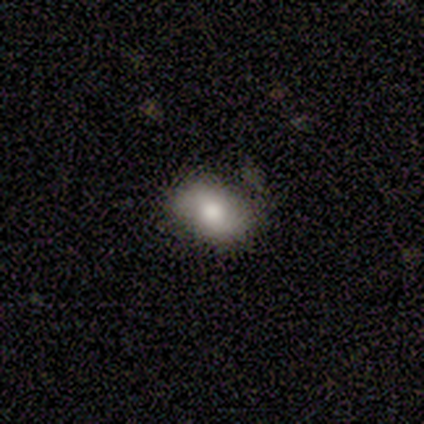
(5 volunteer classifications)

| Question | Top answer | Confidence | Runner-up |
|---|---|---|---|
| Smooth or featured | featured or disk | 60% | smooth (20%) |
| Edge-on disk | no | 100% | — |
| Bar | no | 67% | weak (33%) |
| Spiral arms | yes | 100% | — |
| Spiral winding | medium | 67% | loose (33%) |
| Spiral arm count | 2 | 67% | 1 (33%) |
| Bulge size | large | 67% | moderate (33%) |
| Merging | none | 100% | — |